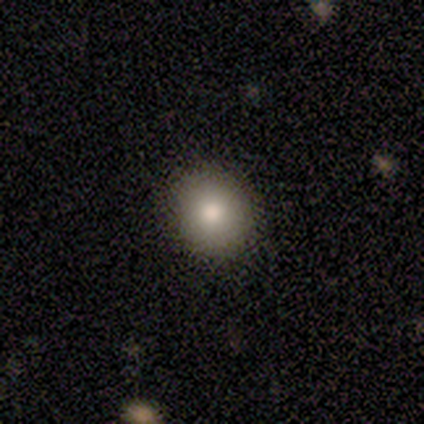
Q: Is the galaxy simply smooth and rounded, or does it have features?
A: smooth — 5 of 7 (71%).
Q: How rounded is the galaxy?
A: round — 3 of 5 (60%).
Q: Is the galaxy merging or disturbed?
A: none — 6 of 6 (100%).